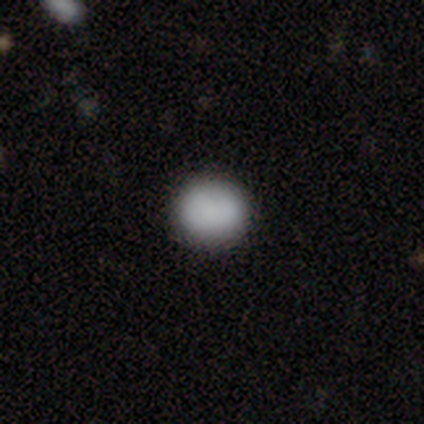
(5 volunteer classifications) Morphology: type=smooth (80%); roundness=round (75%); merging=none (80%).